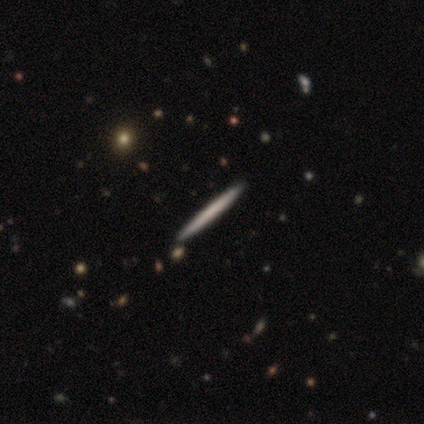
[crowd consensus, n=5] smooth_or_featured: smooth (p=0.40) [tied with: featured or disk p=0.40]
how_rounded: cigar-shaped (p=1.00)
merging: none (p=1.00)